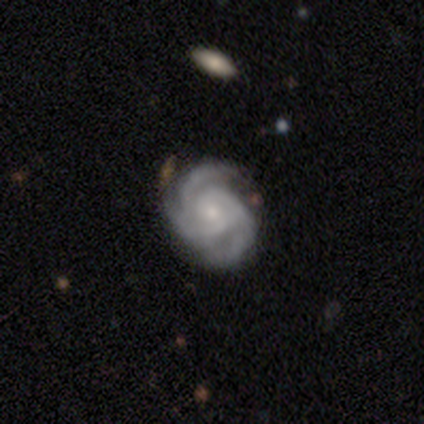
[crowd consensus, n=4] This appears to be a featured or disk galaxy (100%) with no bar (50%), 3 (75%) tight (100%) spiral arms (100%) and a moderate central bulge (50%, tied with small). Merging: none (50%).